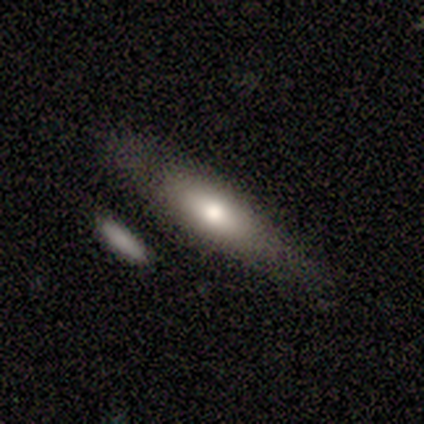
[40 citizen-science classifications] smooth-or-featured: smooth: 70% | featured or disk: 28% | star or artifact: 2%
  how-rounded: in between: 54% | cigar-shaped: 43% | round: 4%
  merging: none: 56% | minor disturbance: 33% | major disturbance: 8% | merger: 3%